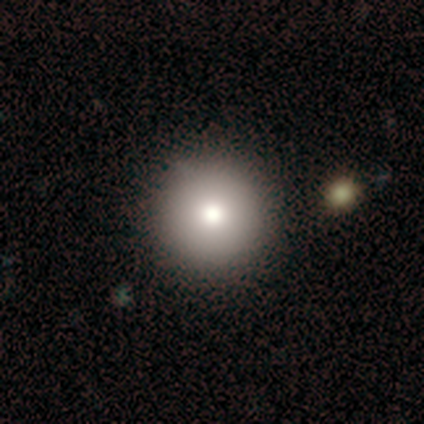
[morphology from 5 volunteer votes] Smooth or featured: smooth — 60% (featured or disk — 40%)
How rounded: round — 100%
Merging: none — 80% (merger — 20%)